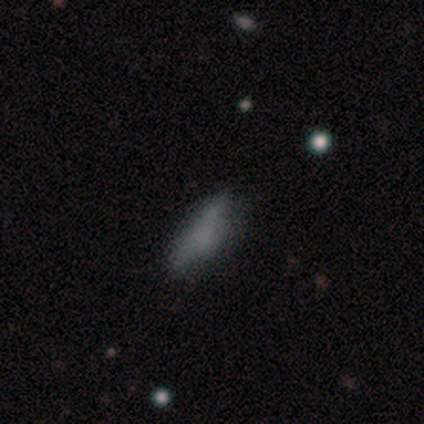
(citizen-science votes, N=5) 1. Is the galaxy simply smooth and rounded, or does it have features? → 60% smooth, 20% featured or disk, 20% star or artifact.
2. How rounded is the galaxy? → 100% in between, 0% round, 0% cigar-shaped.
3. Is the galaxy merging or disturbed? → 75% none, 25% major disturbance, 0% minor disturbance, 0% merger.